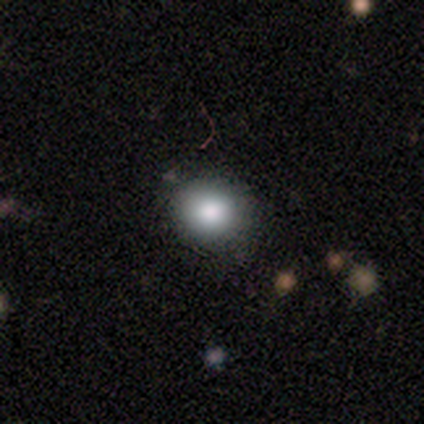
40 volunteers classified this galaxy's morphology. Volunteers were most divided on "smooth or featured": smooth: 80%, star or artifact: 12%, featured or disk: 8%. More confident: how rounded — round (94%); merging — none (71%).